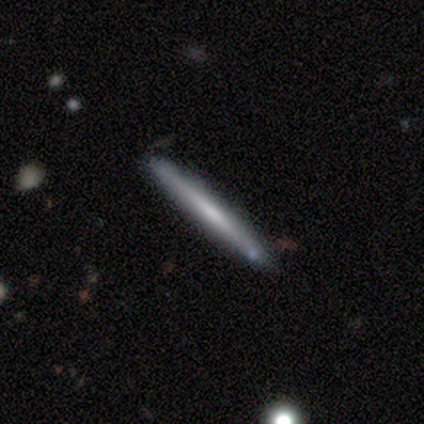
smooth-or-featured: featured or disk: 52% | smooth: 48% | star or artifact: 0%
  disk-edge-on: yes: 86% | no: 14%
    edge-on-bulge: none: 61% | boxy: 28% | rounded: 11%
  merging: none: 57% | minor disturbance: 8% | merger: 5% | major disturbance: 0%